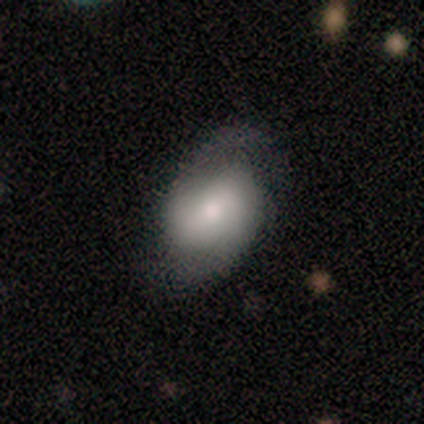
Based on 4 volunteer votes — Volunteers were most divided on "bar": weak: 67%, strong: 33%, no: 0%. More confident: edge-on disk — no (100%); spiral arms — yes (100%); spiral winding — loose (100%); spiral arm count — 2 (100%); bulge size — moderate (100%); smooth or featured — featured or disk (75%); merging — none (75%).